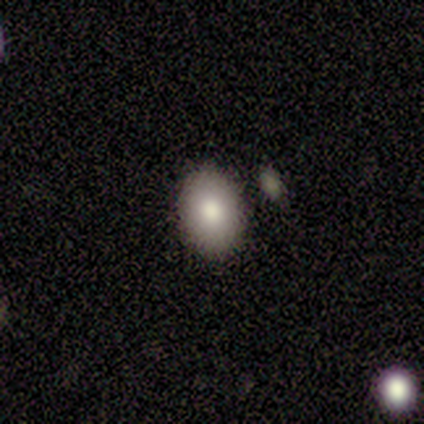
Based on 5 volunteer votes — A smooth galaxy with no disk features (100%) that is in between round and cigar-shaped (80%).

Vote fractions:
- Smooth or featured? smooth: 100% / featured or disk: 0% / star or artifact: 0%
- How rounded? in between: 80% / round: 20% / cigar-shaped: 0%
- Merging? none: 80% / minor disturbance: 20% / major disturbance: 0% / merger: 0%